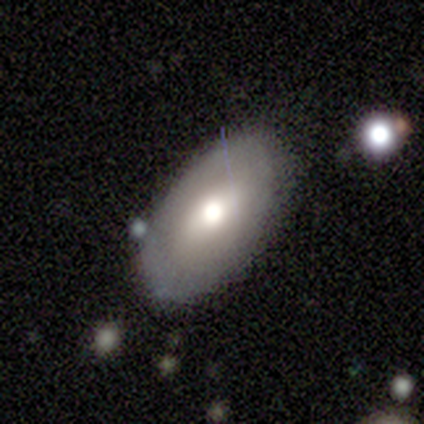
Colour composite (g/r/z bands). It shows a smooth galaxy with no disk features (58%) that is in between round and cigar-shaped (100%). Merging: none (74%).